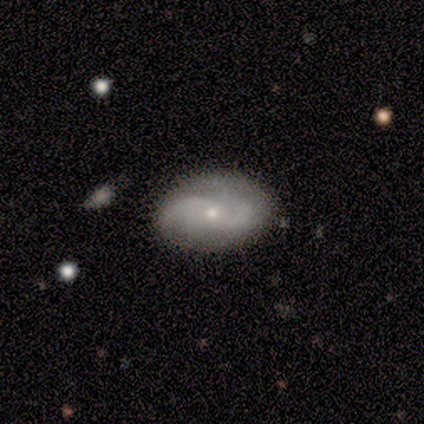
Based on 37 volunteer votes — Overall: featured or disk (73%). Edge-on disk: no (93%). Bar: no (64%; weak 28%). Spiral arms: yes (100%). Spiral arm count: 2 (68%). Spiral winding: loose (56%; medium 28%). Bulge size: small (84%). Merging: none (68%).